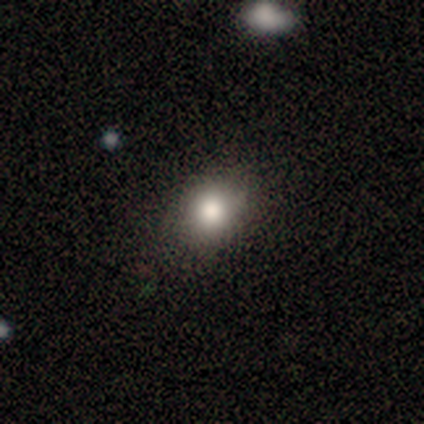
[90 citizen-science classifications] Smooth or featured: smooth — 72% (star or artifact — 20%)
How rounded: round — 66% (in between — 31%)
Merging: none — 90% (minor disturbance — 6%)